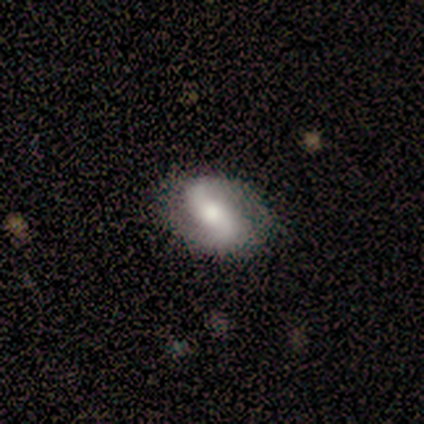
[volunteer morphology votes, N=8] Overall: featured or disk (75%). Edge-on disk: no (100%). Bar: strong (67%). Spiral arms: yes (100%). Spiral arm count: 2 (100%). Spiral winding: loose (50%; medium 33%). Bulge size: moderate (50%; small 33%). Merging: none (71%).